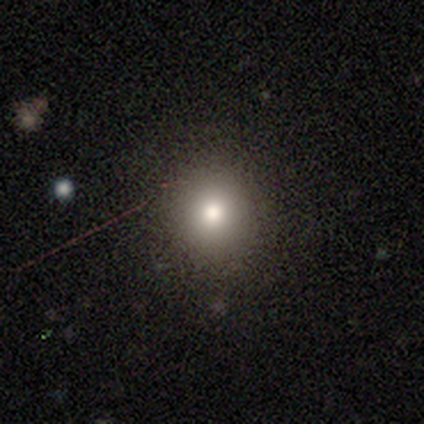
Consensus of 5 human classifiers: A smooth galaxy with no disk features (80%) that is round (100%). Merging: none (100%).